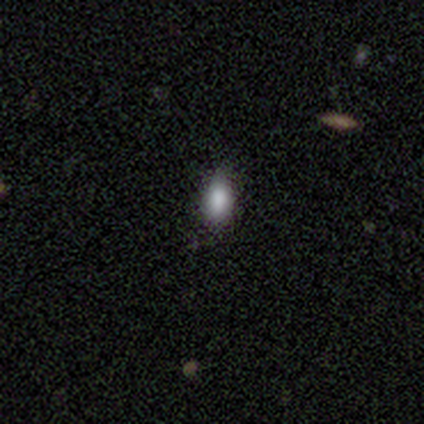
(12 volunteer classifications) A smooth galaxy with no disk features (92%) that is in between round and cigar-shaped (82%). Merging: none (64%).